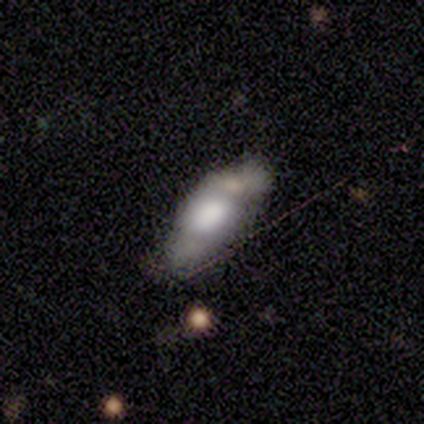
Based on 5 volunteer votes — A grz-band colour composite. It shows a smooth galaxy with no disk features (80%) that is in between round and cigar-shaped (50%, tied with cigar-shaped). Merging: merger (60%).